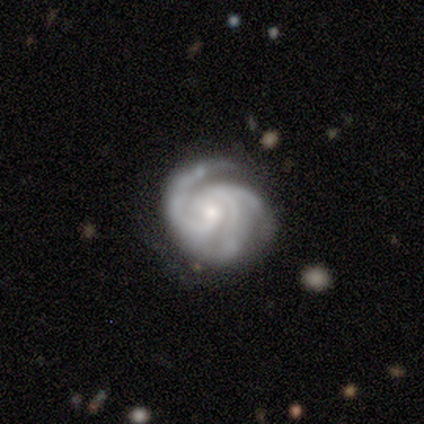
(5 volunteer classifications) This appears to be a featured or disk galaxy (100%) with no bar (80%), 3 (100%) tight (100%) spiral arms (100%) and a small central bulge (60%). Merging: none (100%).